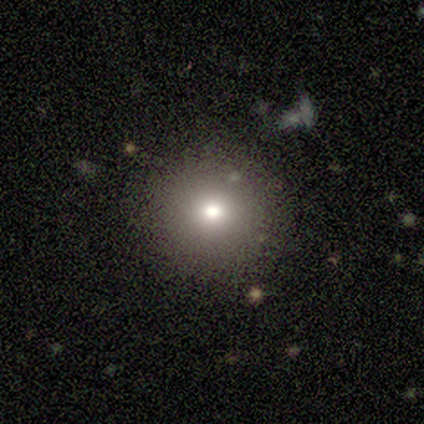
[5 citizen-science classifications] This appears to be a smooth galaxy with no disk features (100%) that is round (100%). Merging: none (80%).